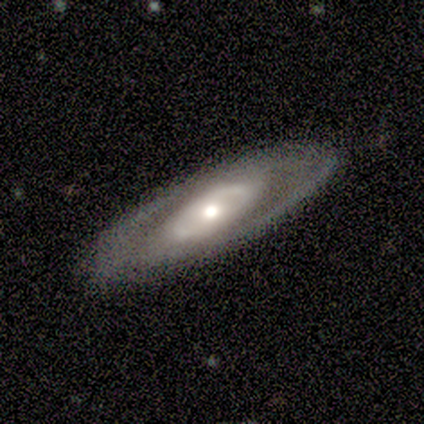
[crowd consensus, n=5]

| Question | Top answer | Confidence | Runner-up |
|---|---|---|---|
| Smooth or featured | featured or disk | 100% | — |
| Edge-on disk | no | 80% | yes (20%) |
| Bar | no | 75% | strong (25%) |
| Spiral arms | no | 75% | yes (25%) |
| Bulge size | large | 50% | moderate (25%) |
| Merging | none | 100% | — |